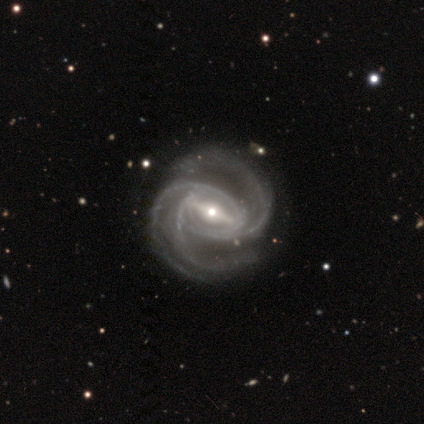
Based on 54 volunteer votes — Q: Smooth or featured?
A: featured or disk (93%); runner-up: star or artifact (7%)
Q: Edge-on disk?
A: no (98%); runner-up: yes (2%)
Q: Bar?
A: strong (71%); runner-up: weak (20%)
Q: Spiral arms?
A: yes (100%)
Q: Spiral winding?
A: medium (65%); runner-up: tight (31%)
Q: Spiral arm count?
A: 3 (61%); runner-up: 2 (27%)
Q: Bulge size?
A: small (55%); runner-up: moderate (43%)
Q: Merging?
A: none (66%); runner-up: minor disturbance (18%)